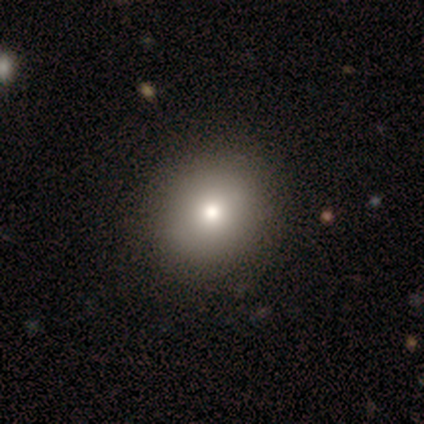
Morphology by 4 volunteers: A smooth galaxy with no disk features (50%) that is round (100%). Merging: none (100%).